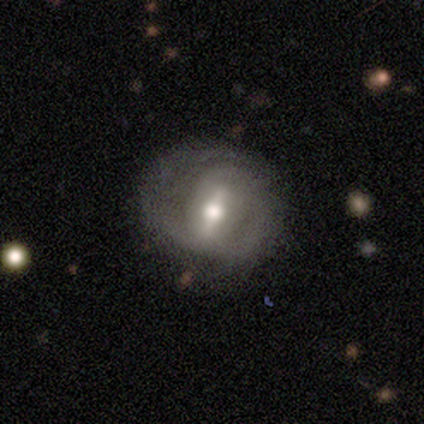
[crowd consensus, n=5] Smooth or featured: featured or disk — 100%
Edge-on disk: no — 100%
Bar: strong — 80% (weak — 20%)
Spiral arms: yes — 100%
Spiral winding: medium — 60% (tight — 40%)
Spiral arm count: 2 — 60% (1 — 20%)
Bulge size: moderate — 80% (large — 20%)
Merging: none — 60% (minor disturbance — 20%)